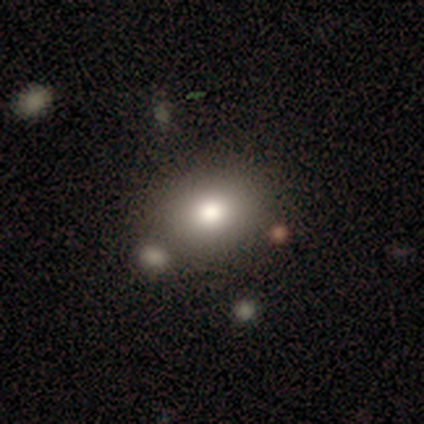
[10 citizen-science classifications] smooth_or_featured: smooth (p=0.80) [alt: featured or disk p=0.20]
how_rounded: round (p=0.50) [tied with: in between p=0.50]
merging: none (p=0.80) [alt: major disturbance p=0.10]